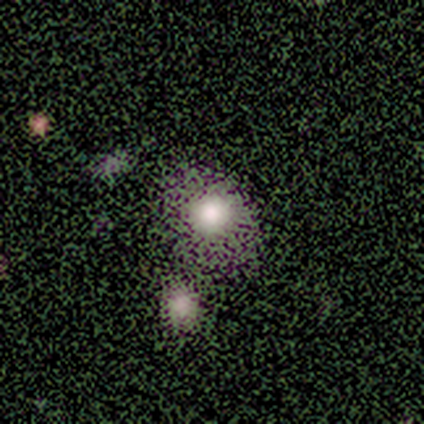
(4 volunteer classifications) Smooth or featured? star or artifact (50%)